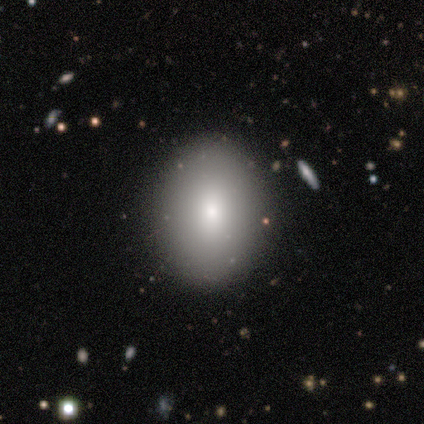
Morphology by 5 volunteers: Smooth or featured: smooth — 100%
How rounded: round — 80% (in between — 20%)
Merging: none — 80% (major disturbance — 20%)